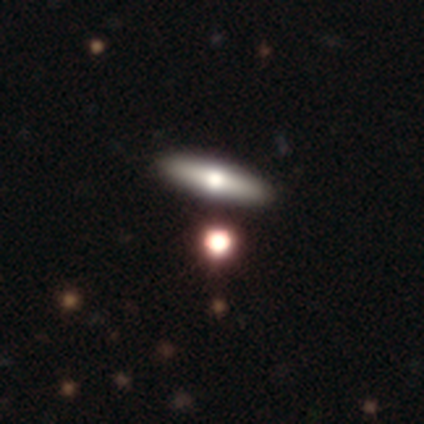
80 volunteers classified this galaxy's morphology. Volunteers were most divided on "smooth or featured": smooth: 54%, featured or disk: 38%, star or artifact: 9%. Remaining: how rounded — cigar-shaped (65%); merging — none (44%).